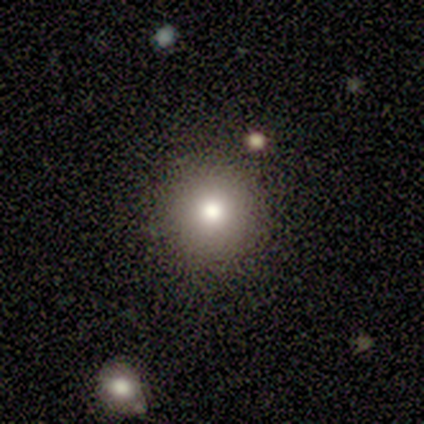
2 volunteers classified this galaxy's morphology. Q: Smooth or featured?
A: smooth (100%)
Q: How rounded?
A: round (100%)
Q: Merging?
A: none (100%)